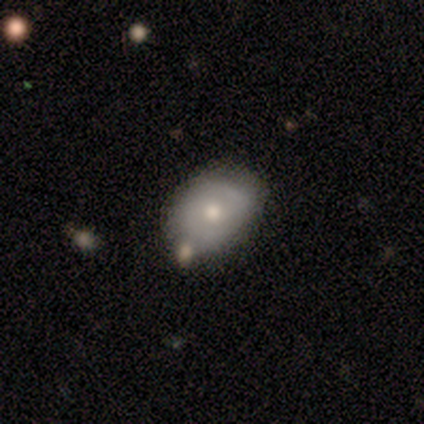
smooth-or-featured: smooth: 67% | featured or disk: 33% | star or artifact: 0%
  how-rounded: in between: 75% | round: 25% | cigar-shaped: 0%
  merging: none: 100% | minor disturbance: 0% | major disturbance: 0% | merger: 0%